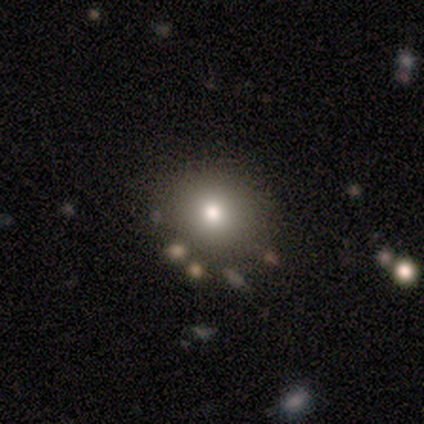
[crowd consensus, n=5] Smooth or featured: smooth — 60% (star or artifact — 40%)
How rounded: round — 67% (in between — 33%)
Merging: none — 100%